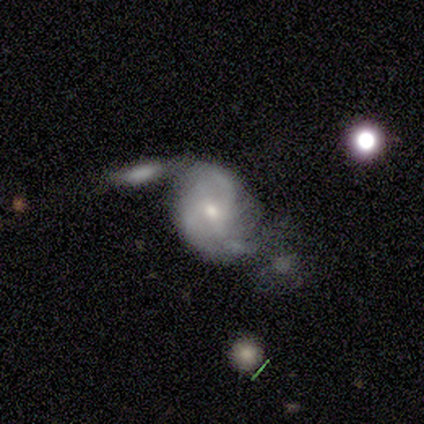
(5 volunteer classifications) smooth-or-featured: featured or disk: 80% | smooth: 20% | star or artifact: 0%
  disk-edge-on: no: 100% | yes: 0%
    bar: no: 100% | strong: 0% | weak: 0%
    has-spiral-arms: yes: 100% | no: 0%
      spiral-winding: medium: 75% | loose: 25% | tight: 0%
      spiral-arm-count: 3: 75% | can't tell: 25% | 1: 0% | 2: 0% | 4: 0% | more than 4: 0%
    bulge-size: small: 100% | dominant: 0% | large: 0% | moderate: 0% | none: 0%
  merging: minor disturbance: 60% | major disturbance: 20% | merger: 20% | none: 0%